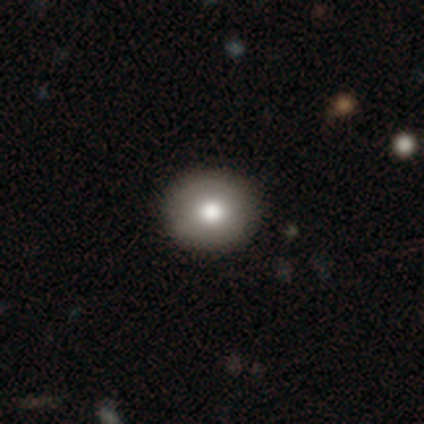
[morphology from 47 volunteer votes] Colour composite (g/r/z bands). It shows a smooth galaxy with no disk features (81%) that is round (82%). Merging: none (88%).